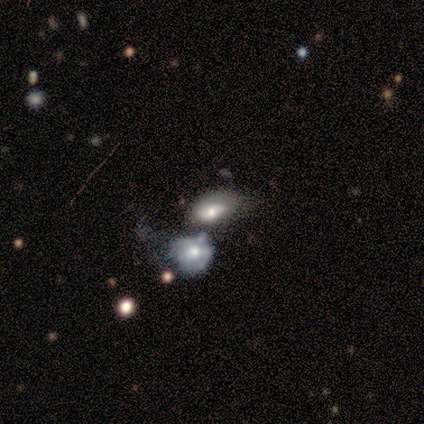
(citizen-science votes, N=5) smooth-or-featured: smooth: 80% | featured or disk: 20% | star or artifact: 0%
  how-rounded: in between: 100% | round: 0% | cigar-shaped: 0%
  merging: merger: 60% | none: 20% | minor disturbance: 20% | major disturbance: 0%